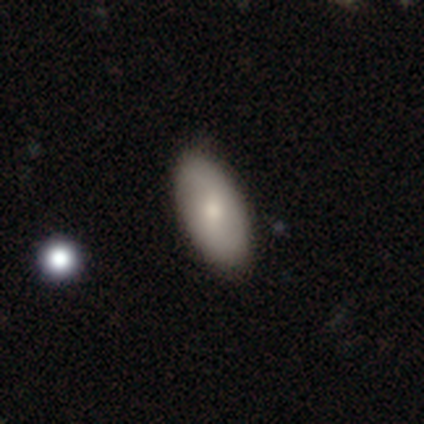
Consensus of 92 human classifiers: A smooth galaxy with no disk features (67%) that is in between round and cigar-shaped (95%). Merging: none (81%).